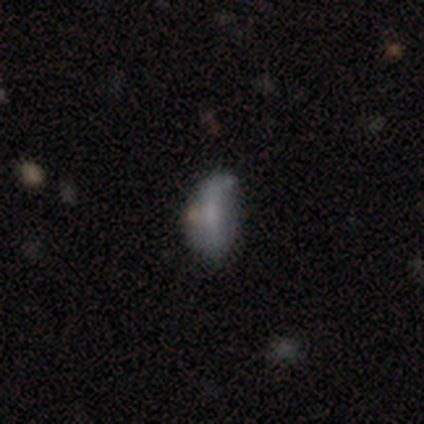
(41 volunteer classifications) This is likely a smooth galaxy (71%). How rounded: clearly in between (90%). Merging: possibly none (50%).